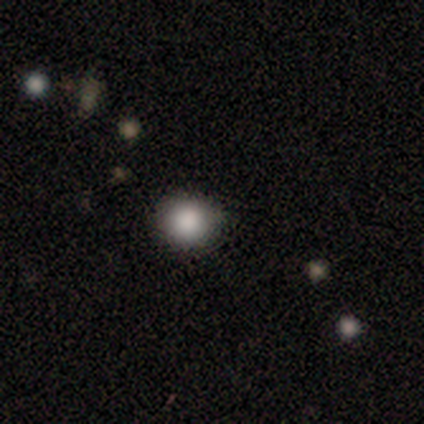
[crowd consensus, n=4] Morphology: type=smooth (75%); roundness=round (100%); merging=none (100%).